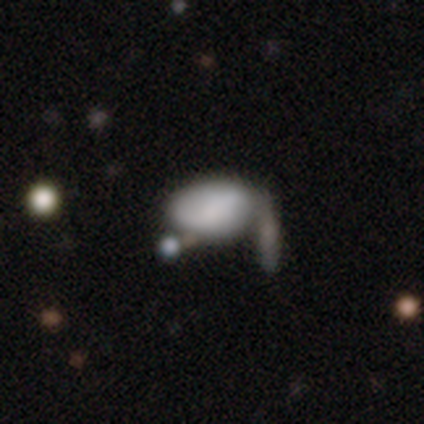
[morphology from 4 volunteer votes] smooth 75%, featured or disk 25%, star or artifact 0%. Down the decision tree: how rounded — in between (100%); merging — none (50%, tied with minor disturbance).